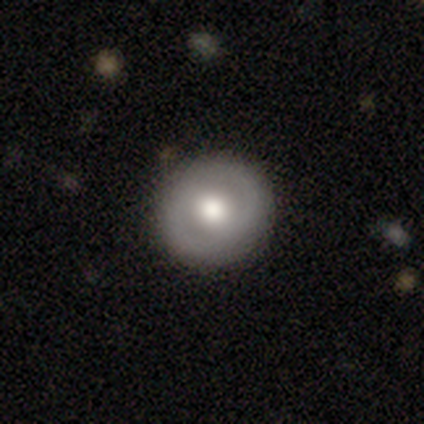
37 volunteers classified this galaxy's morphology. Smooth or featured? smooth (62%)
How rounded? round (87%)
Merging? none (97%)